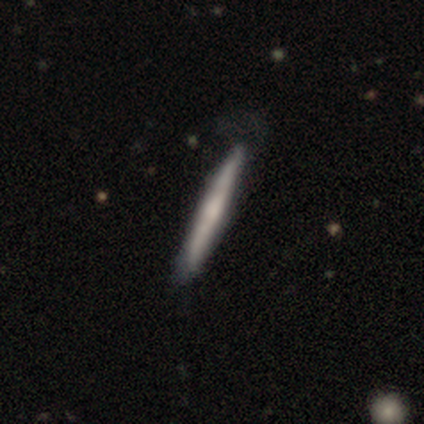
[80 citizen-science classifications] Smooth or featured: featured or disk — 54% (smooth — 42%)
Edge-on disk: yes — 93% (no — 7%)
Edge-on bulge: rounded — 62% (none — 32%)
Merging: none — 31% (minor disturbance — 13%)